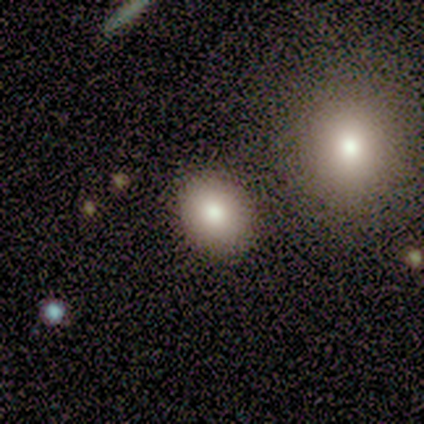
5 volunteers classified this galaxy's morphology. Smooth or featured? smooth (60%)
How rounded? round (67%)
Merging? none (100%)